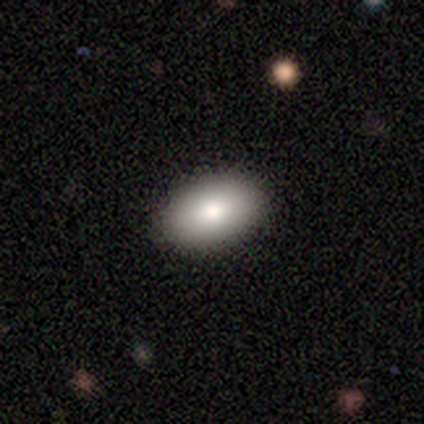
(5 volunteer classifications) Q: Smooth or featured?
A: smooth (100%)
Q: How rounded?
A: in between (100%)
Q: Merging?
A: none (100%)